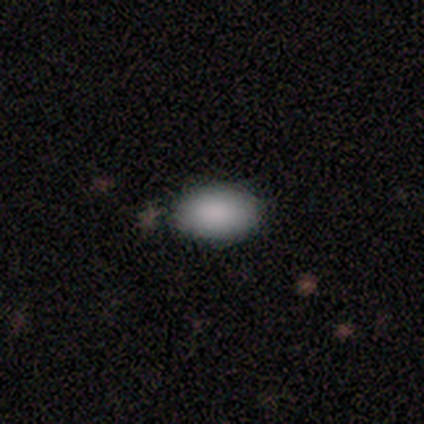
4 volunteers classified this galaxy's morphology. A smooth galaxy with no disk features (100%) that is in between round and cigar-shaped (100%). Merging: none (75%).